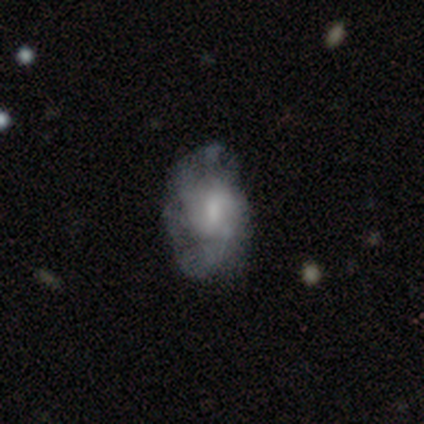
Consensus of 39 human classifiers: smooth_or_featured: featured or disk (p=0.54) [alt: smooth p=0.33]
disk_edge_on: no (p=0.95) [alt: yes p=0.05]
bar: no (p=0.45) [alt: weak p=0.40]
has_spiral_arms: yes (p=0.80) [alt: no p=0.20]
spiral_winding: medium (p=0.44) [alt: loose p=0.31]
spiral_arm_count: can't tell (p=0.56) [alt: 2 p=0.25]
bulge_size: moderate (p=0.35) [tied with: small p=0.35]
merging: none (p=0.53) [alt: major disturbance p=0.24]